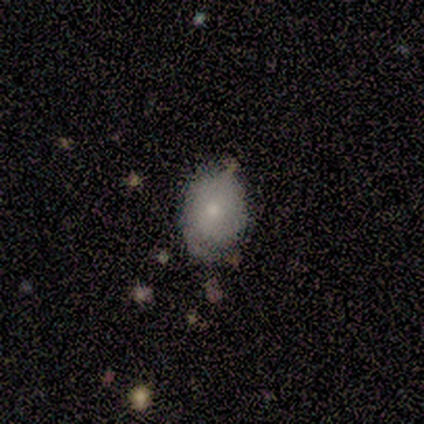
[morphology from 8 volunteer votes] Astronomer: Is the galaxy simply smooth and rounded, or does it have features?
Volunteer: smooth — 88%.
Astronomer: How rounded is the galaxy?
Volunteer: in between — 86%.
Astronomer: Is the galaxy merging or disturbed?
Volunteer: none — 38%, tied with minor disturbance at 38%.